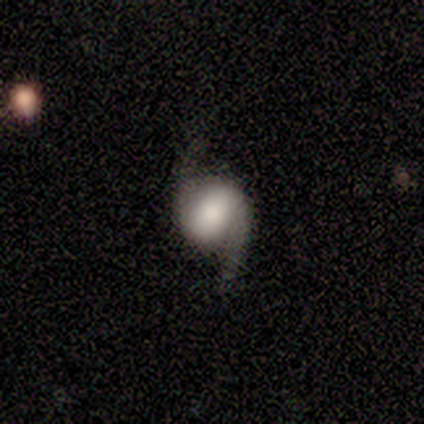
A featured or disk galaxy (100%) with a weak bar (50%, tied with no), 2 (100%) loose (100%) spiral arms (100%) and a dominant central bulge (25%, tied with large, moderate and small).

Vote fractions:
- Smooth or featured? featured or disk: 100% / smooth: 0% / star or artifact: 0%
- Edge-on disk? no: 100% / yes: 0%
- Bar? weak: 50% (tied) / no: 50% (tied) / strong: 0%
- Spiral arms? yes: 100% / no: 0%
- Spiral winding? loose: 100% / tight: 0% / medium: 0%
- Spiral arm count? 2: 100% / 1: 0% / 3: 0% / 4: 0% / more than 4: 0% / can't tell: 0%
- Bulge size? dominant: 25% (tied) / large: 25% (tied) / moderate: 25% (tied) / small: 25% (tied) / none: 0%
- Merging? none: 75% / minor disturbance: 25% / major disturbance: 0% / merger: 0%